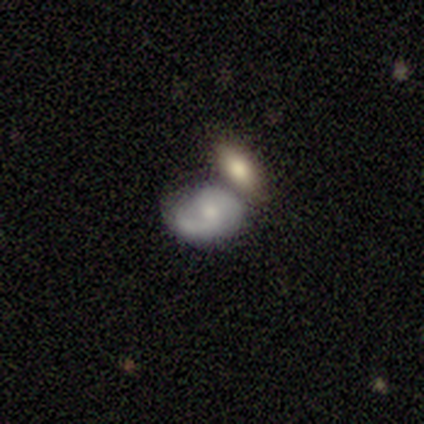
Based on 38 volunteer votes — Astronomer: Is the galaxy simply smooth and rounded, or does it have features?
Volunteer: smooth — 50% (runner-up: featured or disk, 47%).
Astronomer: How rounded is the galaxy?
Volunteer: in between — 79%.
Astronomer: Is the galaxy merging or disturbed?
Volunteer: merger — 54%.